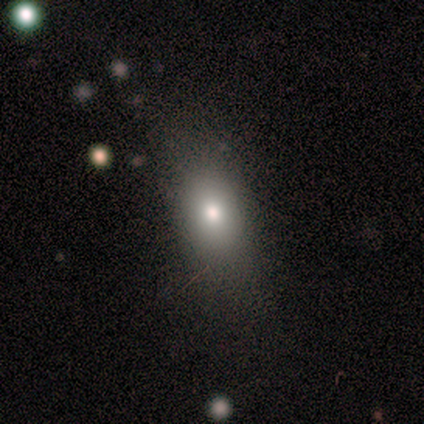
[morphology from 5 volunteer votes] Smooth or featured? smooth (80%)
How rounded? in between (100%)
Merging? none (80%)